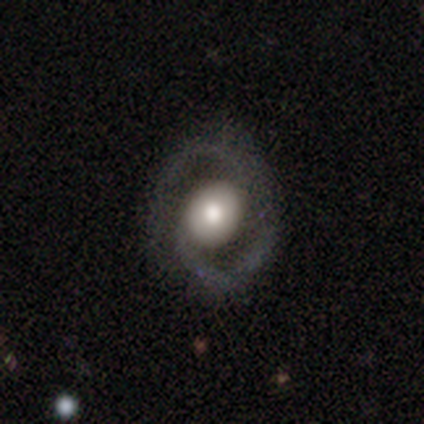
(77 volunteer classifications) A featured or disk galaxy (77%) with no bar (81%), 2 (64%) medium (40%) spiral arms (82%) and a large central bulge (47%). Merging: none (41%).